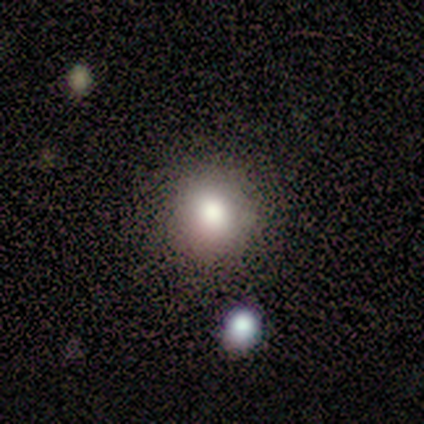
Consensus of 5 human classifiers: This appears to be a smooth galaxy with no disk features (60%) that is round (100%). Merging: none (100%).